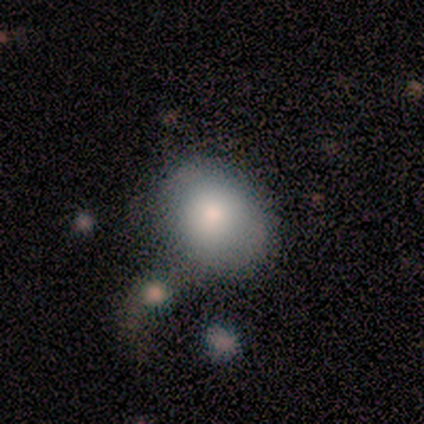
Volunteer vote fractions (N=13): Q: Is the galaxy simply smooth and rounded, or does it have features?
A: smooth — 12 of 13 (92%).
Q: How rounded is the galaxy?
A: in between — 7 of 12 (58%).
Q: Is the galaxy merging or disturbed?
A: none — 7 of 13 (54%).